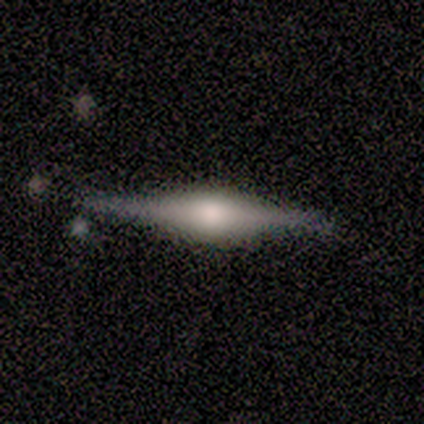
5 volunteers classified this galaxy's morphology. This is clearly a featured or disk galaxy (80%). It is clearly viewed edge-on (100%). Edge-on bulge: clearly rounded (100%). Merging: likely none (60%).